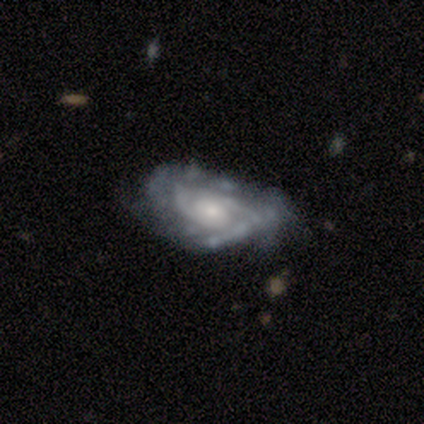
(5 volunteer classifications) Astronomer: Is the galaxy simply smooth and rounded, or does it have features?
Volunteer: featured or disk — 80%.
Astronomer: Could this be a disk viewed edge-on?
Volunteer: no — 100%.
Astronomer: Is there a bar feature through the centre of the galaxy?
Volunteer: no — 100%.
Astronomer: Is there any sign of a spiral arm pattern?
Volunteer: yes — 100%.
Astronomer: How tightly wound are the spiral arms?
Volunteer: tight — 75%.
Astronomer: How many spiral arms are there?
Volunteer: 3 — 50%, tied with can't tell at 50%.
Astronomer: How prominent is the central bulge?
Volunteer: moderate — 50%, tied with small at 50%.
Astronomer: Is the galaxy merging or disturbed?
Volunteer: none — 60%.